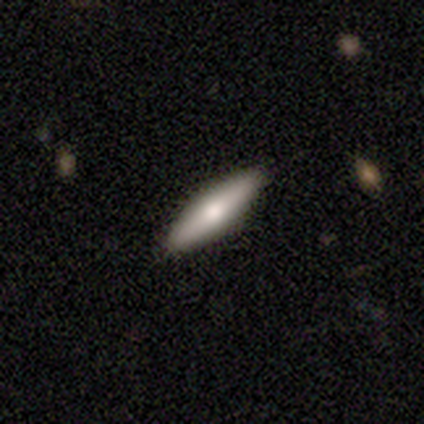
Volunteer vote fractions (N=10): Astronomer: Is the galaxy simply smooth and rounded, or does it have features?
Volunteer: smooth — 50% (runner-up: featured or disk, 40%).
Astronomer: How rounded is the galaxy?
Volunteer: in between — 60% (runner-up: cigar-shaped, 40%).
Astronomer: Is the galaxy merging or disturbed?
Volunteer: none — 100%.